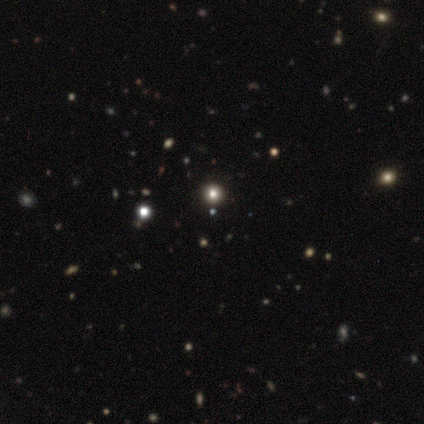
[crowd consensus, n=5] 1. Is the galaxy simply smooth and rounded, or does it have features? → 80% smooth, 20% star or artifact, 0% featured or disk.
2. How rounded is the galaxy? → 100% round, 0% in between, 0% cigar-shaped.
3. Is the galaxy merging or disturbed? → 100% none, 0% minor disturbance, 0% major disturbance, 0% merger.